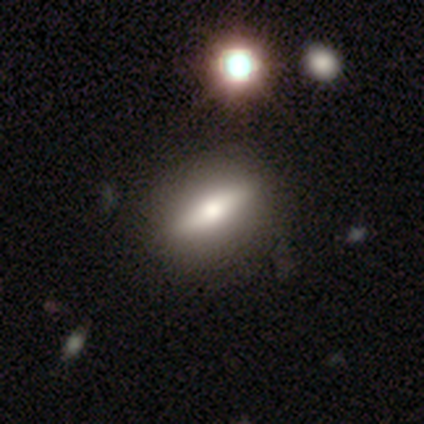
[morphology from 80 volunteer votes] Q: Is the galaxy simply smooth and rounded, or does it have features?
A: smooth — 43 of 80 (54%).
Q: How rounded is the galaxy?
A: cigar-shaped — 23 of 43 (53%).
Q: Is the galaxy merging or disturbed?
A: none — 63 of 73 (86%).